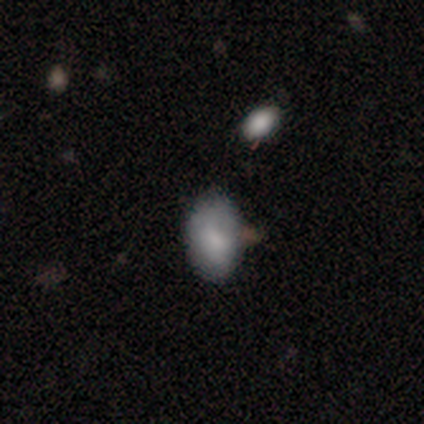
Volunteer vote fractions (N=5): Smooth or featured? smooth (60%)
How rounded? in between (100%)
Merging? minor disturbance (67%)